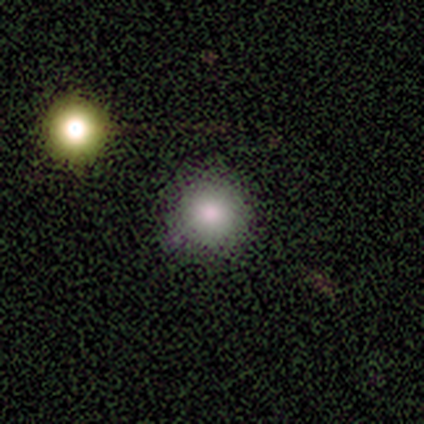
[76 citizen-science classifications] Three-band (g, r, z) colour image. It shows a smooth galaxy with no disk features (75%) that is round (100%). Merging: none (41%).